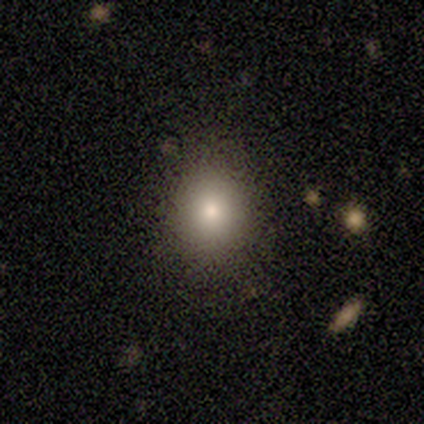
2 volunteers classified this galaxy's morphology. Smooth or featured: smooth — 100%
How rounded: round — 100%
Merging: none — 100%